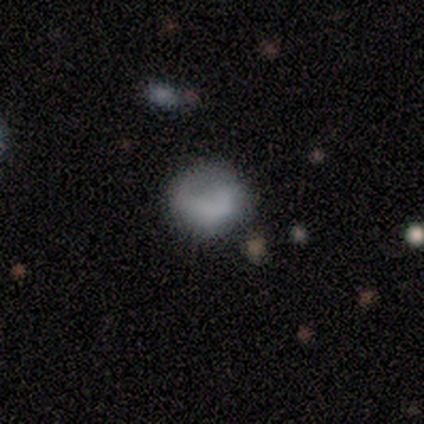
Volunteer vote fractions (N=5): Smooth or featured? 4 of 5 (80%) said smooth. How rounded? 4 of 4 (100%) said round. Merging? 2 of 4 (50%) said none.